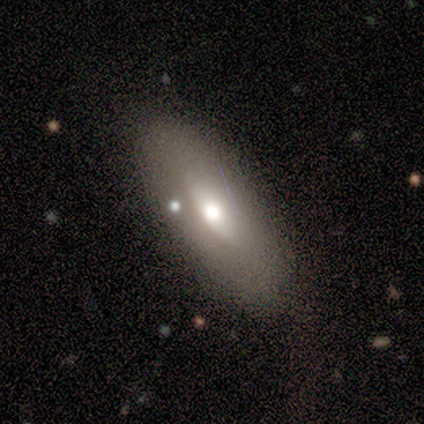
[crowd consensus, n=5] This appears to be a featured or disk galaxy (60%) with no bar (100%), no spiral arms (100%) and a moderate central bulge (100%). Merging: none (80%).